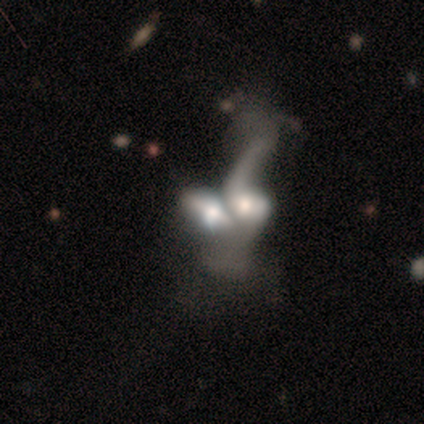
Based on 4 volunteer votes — Smooth or featured? 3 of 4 (75%) said featured or disk. Edge-on disk? 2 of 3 (67%) said no. Bar? 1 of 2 (50%, tied with no) said weak. Spiral arms? 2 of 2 (100%) said yes. Spiral winding? 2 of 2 (100%) said loose. Spiral arm count? 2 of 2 (100%) said 1. Bulge size? 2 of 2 (100%) said moderate. Merging? 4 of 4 (100%) said merger.